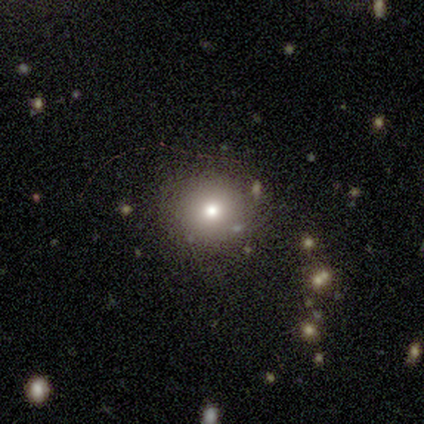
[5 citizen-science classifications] Smooth or featured? featured or disk (60%)
Edge-on disk? no (100%)
Bar? no (100%)
Spiral arms? no (100%)
Bulge size? moderate (100%)
Merging? none (100%)